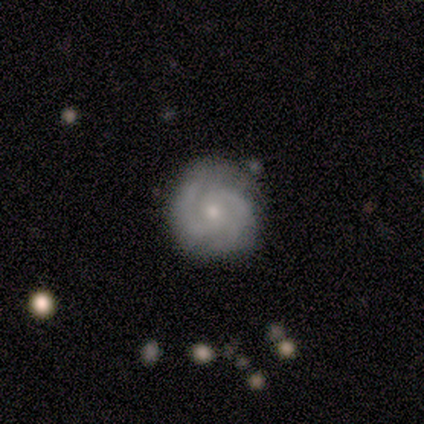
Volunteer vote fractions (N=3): A smooth galaxy with no disk features (33%, tied with featured or disk and star or artifact) that is round (100%).

Vote fractions:
- Smooth or featured? smooth: 33% (tied) / featured or disk: 33% (tied) / star or artifact: 33% (tied)
- How rounded? round: 100% / in between: 0% / cigar-shaped: 0%
- Merging? none: 50% (tied) / minor disturbance: 50% (tied) / major disturbance: 0% / merger: 0%